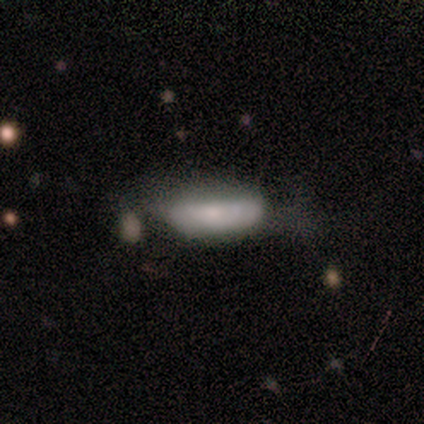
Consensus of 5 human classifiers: smooth-or-featured: smooth: 80% | star or artifact: 20% | featured or disk: 0%
  how-rounded: in between: 75% | cigar-shaped: 25% | round: 0%
  merging: none: 50% | minor disturbance: 25% | major disturbance: 25% | merger: 0%